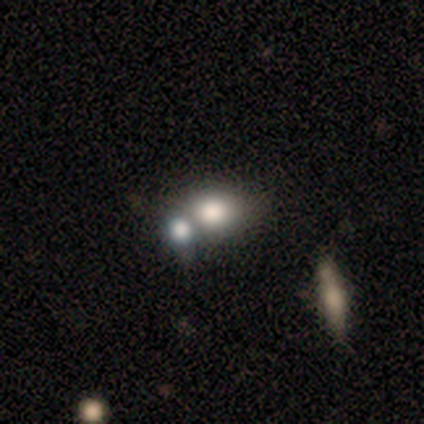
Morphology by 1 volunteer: Smooth or featured: star or artifact — 100%